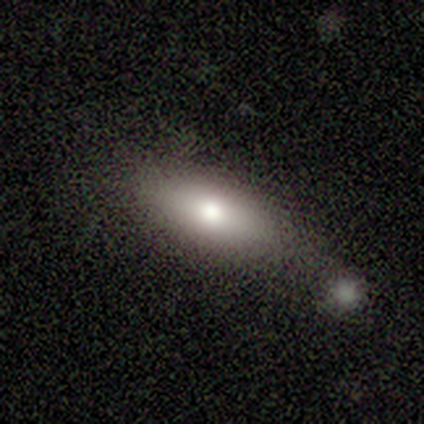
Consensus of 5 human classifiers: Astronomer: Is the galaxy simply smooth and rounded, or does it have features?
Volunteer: smooth — 80%.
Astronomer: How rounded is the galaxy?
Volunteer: in between — 75%.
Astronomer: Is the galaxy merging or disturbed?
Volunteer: none — 60% (runner-up: minor disturbance, 40%).